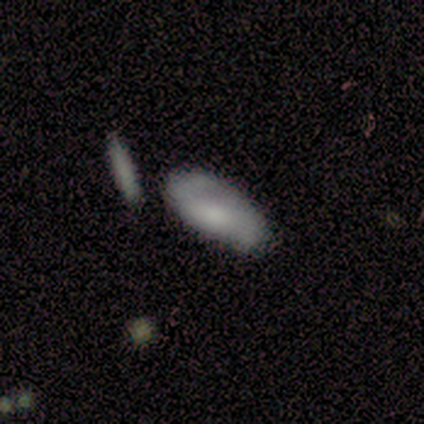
This appears to be a smooth galaxy with no disk features (50%, tied with featured or disk) that is in between round and cigar-shaped (50%, tied with cigar-shaped). Merging: none (75%).